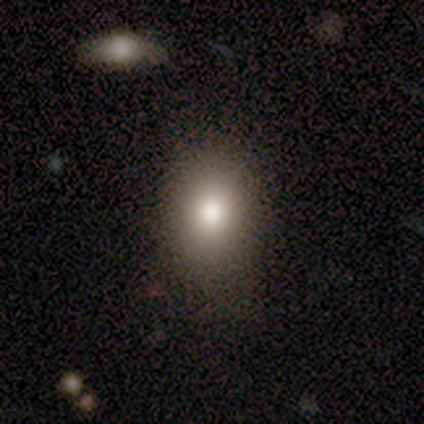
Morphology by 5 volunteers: type=smooth (40%, tied with star or artifact); roundness=in between (100%); merging=none (67%).